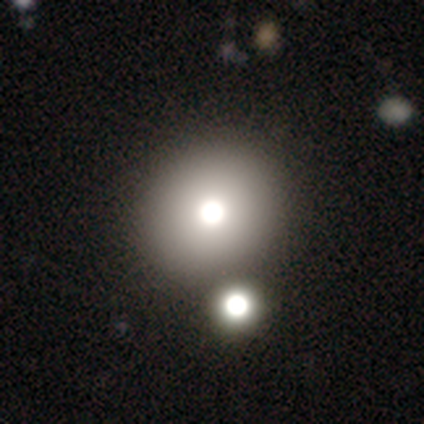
A smooth galaxy with no disk features (60%) that is in between round and cigar-shaped (67%).

Vote fractions:
- Smooth or featured? smooth: 60% / star or artifact: 40% / featured or disk: 0%
- How rounded? in between: 67% / round: 33% / cigar-shaped: 0%
- Merging? none: 100% / minor disturbance: 0% / major disturbance: 0% / merger: 0%